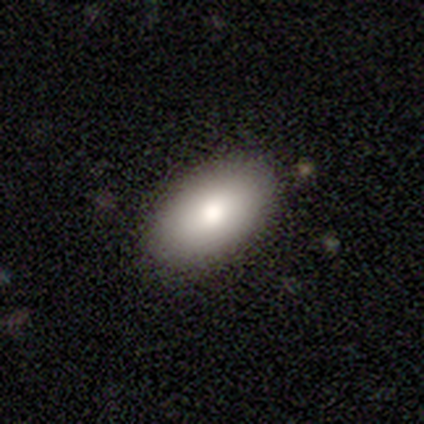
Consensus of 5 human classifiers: A smooth galaxy with no disk features (80%) that is in between round and cigar-shaped (100%).

Vote fractions:
- Smooth or featured? smooth: 80% / featured or disk: 20% / star or artifact: 0%
- How rounded? in between: 100% / round: 0% / cigar-shaped: 0%
- Merging? none: 100% / minor disturbance: 0% / major disturbance: 0% / merger: 0%